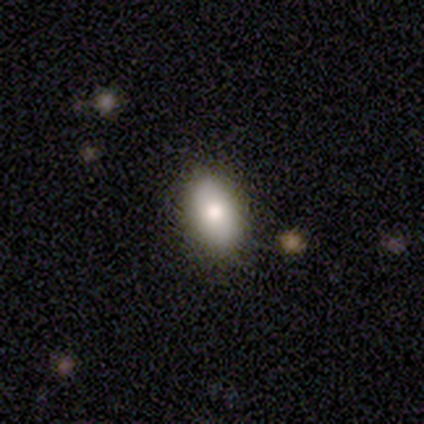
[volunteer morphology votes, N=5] This is clearly a smooth galaxy (100%). How rounded: clearly in between (100%). Merging: clearly none (100%).